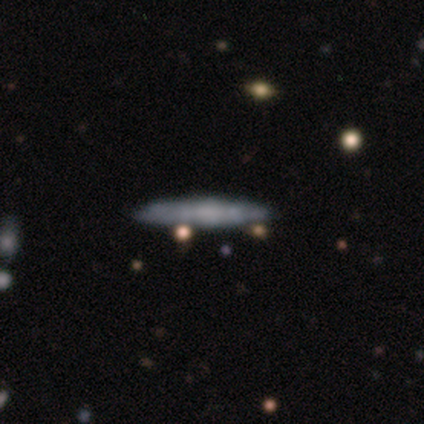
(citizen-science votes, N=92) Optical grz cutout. It shows a smooth galaxy with no disk features (53%) that is cigar-shaped (90%). Merging: none (80%).